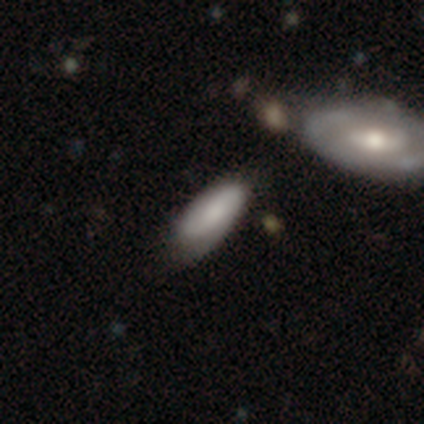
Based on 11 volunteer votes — Smooth or featured?
  - smooth: 73% *
  - featured or disk: 27%
  - star or artifact: 0%
How rounded?
  - in between: 88% *
  - cigar-shaped: 12%
  - round: 0%
Merging?
  - none: 45% *
  - minor disturbance: 36%
  - major disturbance: 18%
  - merger: 0%